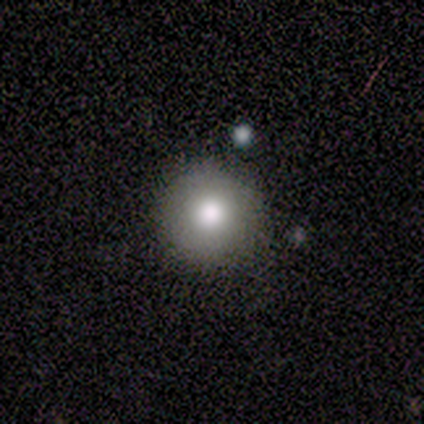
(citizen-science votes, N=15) Overall: smooth (80%). How rounded: round (100%). Merging: none (87%).